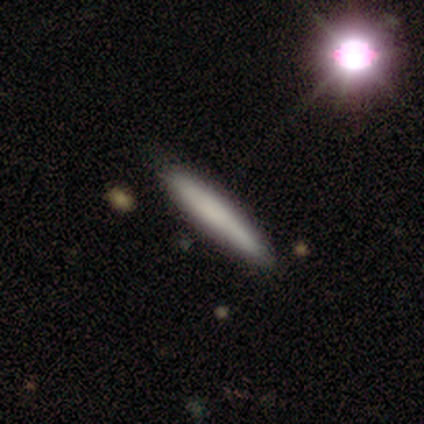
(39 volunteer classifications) Smooth or featured? smooth (69%)
How rounded? cigar-shaped (93%)
Merging? none (68%)